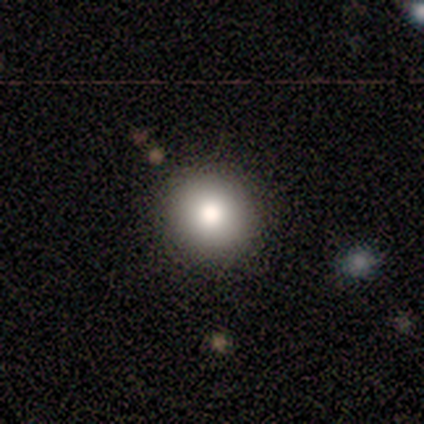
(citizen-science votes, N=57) This appears to be a smooth galaxy with no disk features (82%) that is round (91%). Merging: none (86%).